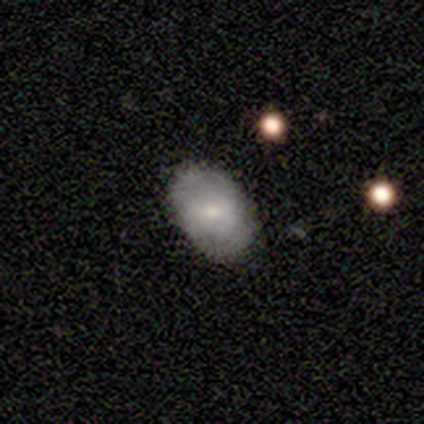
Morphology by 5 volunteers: smooth_or_featured: smooth (p=0.60) [alt: featured or disk p=0.40]
how_rounded: in between (p=1.00)
merging: none (p=0.60) [alt: minor disturbance p=0.40]